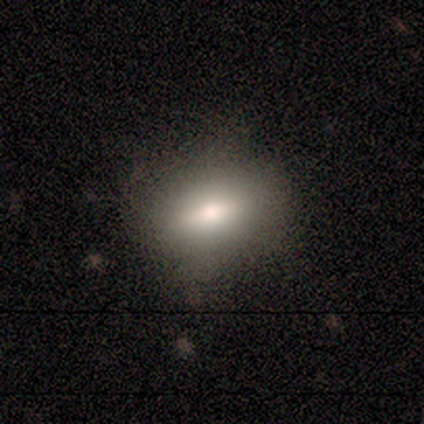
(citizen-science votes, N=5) Overall: smooth (60%; featured or disk 40%). How rounded: round (67%; in between 33%). Merging: none (80%).